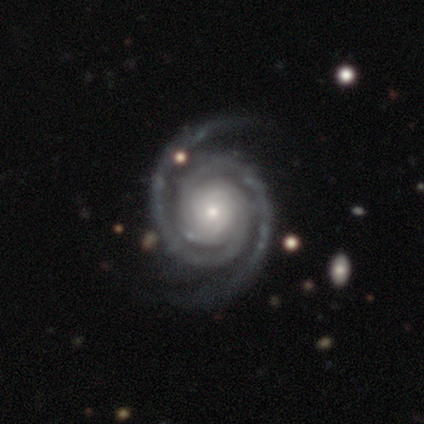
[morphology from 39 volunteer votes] type=featured or disk (100%); edge-on=no (100%); bar=no (77%); spiral arms=yes (100%); winding=tight (85%); arm count=2 (95%); bulge=small (59%); merging=none (74%).